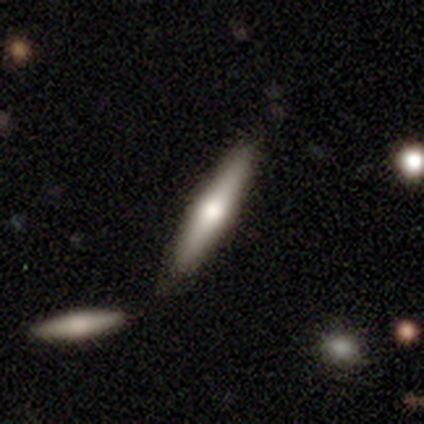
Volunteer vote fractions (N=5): Volunteers were most divided on "smooth or featured": featured or disk: 60%, smooth: 40%, star or artifact: 0%. More confident: edge-on disk — yes (100%); merging — none (100%); edge-on bulge — rounded (67%).